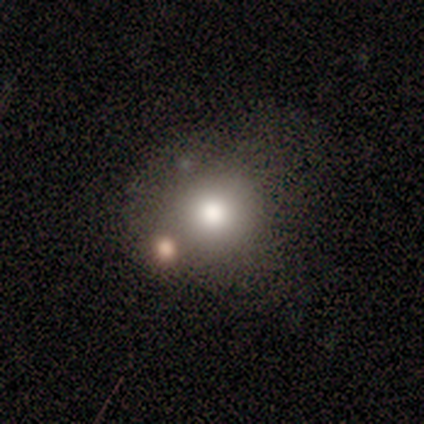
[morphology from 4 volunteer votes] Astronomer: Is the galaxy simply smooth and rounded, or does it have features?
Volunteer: smooth — 50%.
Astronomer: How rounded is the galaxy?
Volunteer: round — 50%, tied with in between at 50%.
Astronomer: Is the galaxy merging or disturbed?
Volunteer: none — 67%.